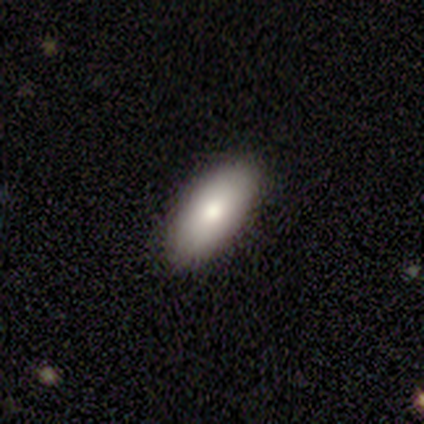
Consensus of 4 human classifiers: A smooth galaxy with no disk features (75%) that is in between round and cigar-shaped (100%). Merging: none (100%).